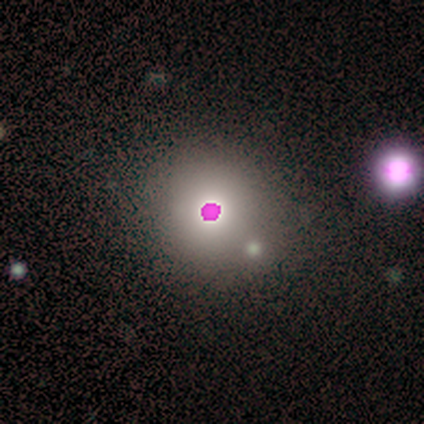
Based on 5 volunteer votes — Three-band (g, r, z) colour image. It shows a star or artifact, not a galaxy (60%).